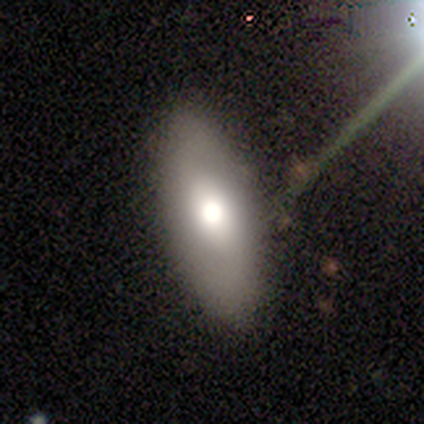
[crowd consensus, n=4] Volunteers were most divided on "merging": none: 67%, minor disturbance: 33%, major disturbance: 0%, merger: 0%. More confident: how rounded — in between (100%); smooth or featured — smooth (75%).